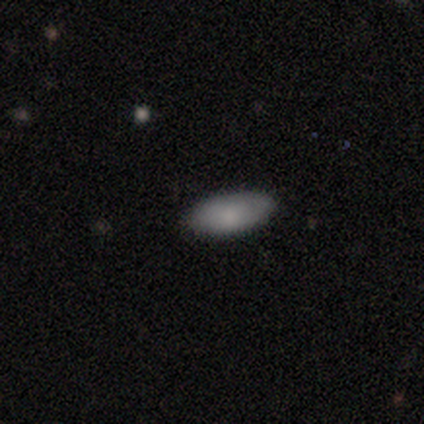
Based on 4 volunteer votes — Morphology: type=smooth (100%); roundness=in between (100%); merging=none (100%).